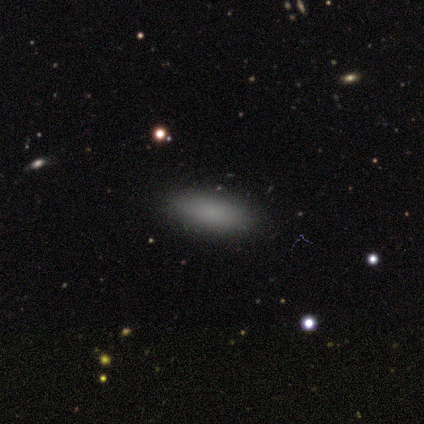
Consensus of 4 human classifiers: Smooth or featured?
  - smooth: 100% *
  - featured or disk: 0%
  - star or artifact: 0%
How rounded?
  - in between: 50% * (tied)
  - cigar-shaped: 50% * (tied)
  - round: 0%
Merging?
  - minor disturbance: 50% *
  - none: 25%
  - major disturbance: 25%
  - merger: 0%